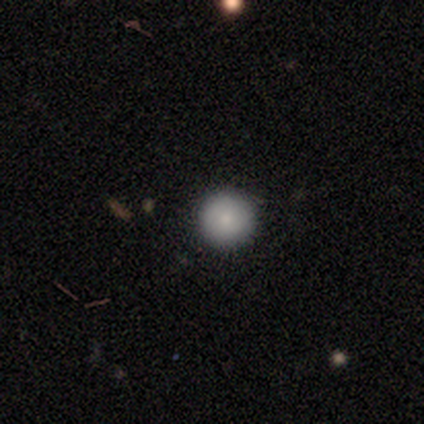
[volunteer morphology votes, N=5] Overall: smooth (100%). How rounded: round (100%). Merging: none (100%).